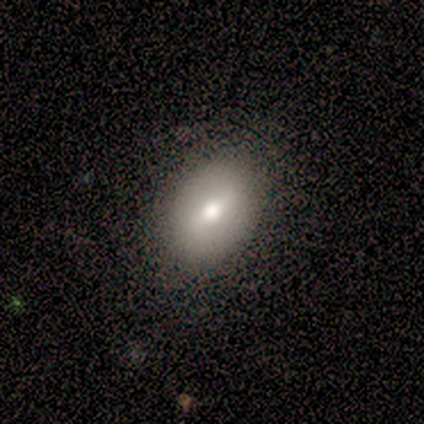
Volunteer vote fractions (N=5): Smooth or featured?
  - smooth: 80% *
  - featured or disk: 20%
  - star or artifact: 0%
How rounded?
  - in between: 50% *
  - round: 25%
  - cigar-shaped: 25%
Merging?
  - none: 80% *
  - minor disturbance: 20%
  - major disturbance: 0%
  - merger: 0%